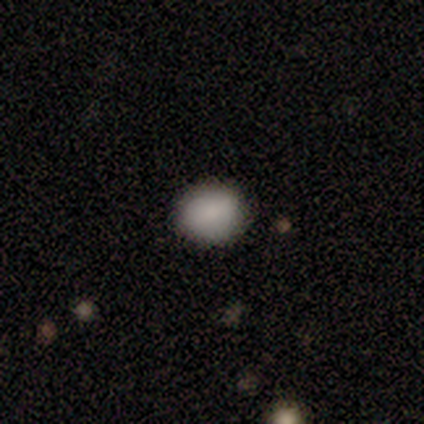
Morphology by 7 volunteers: Overall: smooth (100%). How rounded: round (71%). Merging: none (100%).